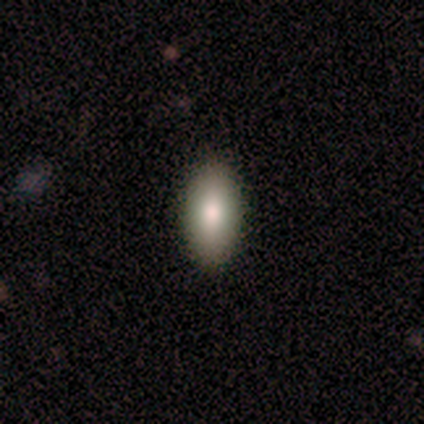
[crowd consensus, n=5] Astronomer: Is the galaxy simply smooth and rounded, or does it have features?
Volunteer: smooth — 100%.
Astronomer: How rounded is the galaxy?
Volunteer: in between — 100%.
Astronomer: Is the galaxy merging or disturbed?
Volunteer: none — 80%.